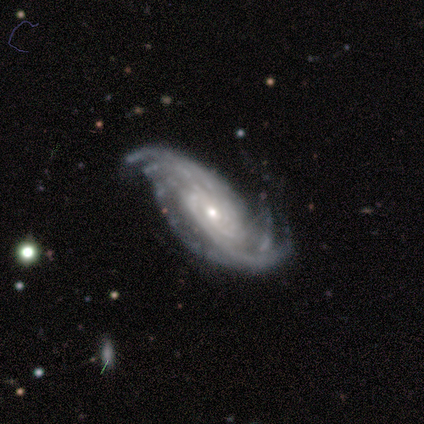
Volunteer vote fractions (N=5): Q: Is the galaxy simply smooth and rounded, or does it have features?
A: featured or disk — 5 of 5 (100%).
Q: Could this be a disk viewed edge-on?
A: no — 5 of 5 (100%).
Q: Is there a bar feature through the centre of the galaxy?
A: no — 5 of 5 (100%).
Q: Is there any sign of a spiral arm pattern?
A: yes — 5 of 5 (100%).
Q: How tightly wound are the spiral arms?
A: tight — 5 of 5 (100%).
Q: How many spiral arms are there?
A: can't tell — 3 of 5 (60%).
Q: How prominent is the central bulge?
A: small — 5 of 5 (100%).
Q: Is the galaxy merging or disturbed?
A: none — 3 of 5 (60%).